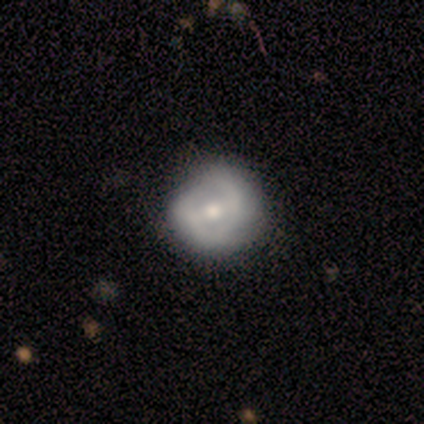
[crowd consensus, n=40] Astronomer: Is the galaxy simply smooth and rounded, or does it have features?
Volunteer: featured or disk — 65%.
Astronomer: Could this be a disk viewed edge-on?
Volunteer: no — 96%.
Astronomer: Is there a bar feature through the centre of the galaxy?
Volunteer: strong — 36%, tied with weak at 36%.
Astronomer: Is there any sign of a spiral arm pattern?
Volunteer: yes — 64%.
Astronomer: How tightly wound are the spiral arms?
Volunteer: tight — 44% (runner-up: medium, 38%).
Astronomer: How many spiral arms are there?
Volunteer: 2 — 75%.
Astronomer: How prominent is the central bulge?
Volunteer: moderate — 76%.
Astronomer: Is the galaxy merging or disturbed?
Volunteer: none — 67%.